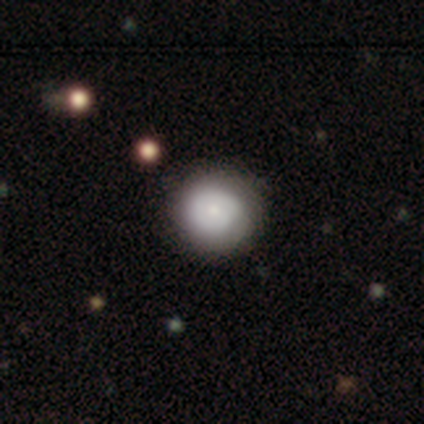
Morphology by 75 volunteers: smooth_or_featured: smooth (p=0.73) [alt: featured or disk p=0.24]
how_rounded: round (p=0.93) [alt: in between p=0.05]
merging: none (p=0.56) [alt: minor disturbance p=0.05]